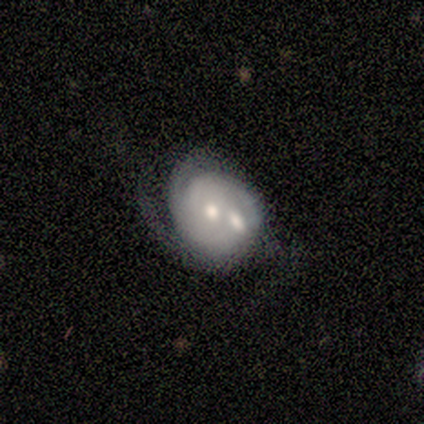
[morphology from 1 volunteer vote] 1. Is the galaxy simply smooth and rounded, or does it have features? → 100% featured or disk, 0% smooth, 0% star or artifact.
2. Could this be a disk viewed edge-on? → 100% no, 0% yes.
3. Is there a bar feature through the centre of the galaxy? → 100% no, 0% strong, 0% weak.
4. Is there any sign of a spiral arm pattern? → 100% yes, 0% no.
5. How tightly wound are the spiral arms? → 100% medium, 0% tight, 0% loose.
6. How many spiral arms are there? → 100% 2, 0% 1, 0% 3, 0% 4, 0% more than 4, 0% can't tell.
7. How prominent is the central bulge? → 100% moderate, 0% dominant, 0% large, 0% small, 0% none.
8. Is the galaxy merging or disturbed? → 100% merger, 0% none, 0% minor disturbance, 0% major disturbance.